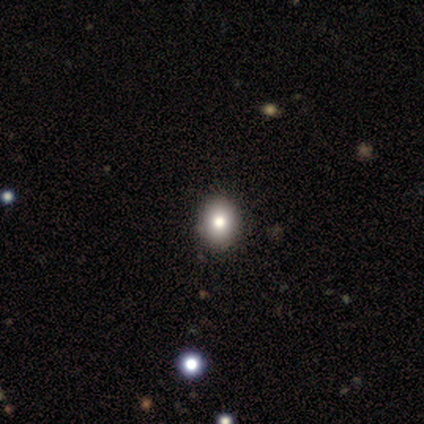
Smooth or featured: smooth — 80% (star or artifact — 20%)
How rounded: round — 50% (tied with in between — 50%)
Merging: none — 75% (minor disturbance — 25%)